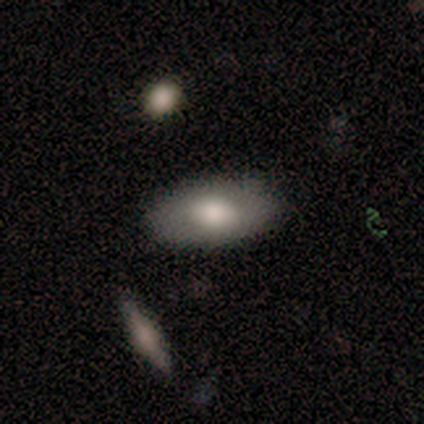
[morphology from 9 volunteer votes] Smooth or featured? 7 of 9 (78%) said smooth. How rounded? 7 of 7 (100%) said in between. Merging? 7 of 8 (88%) said none.